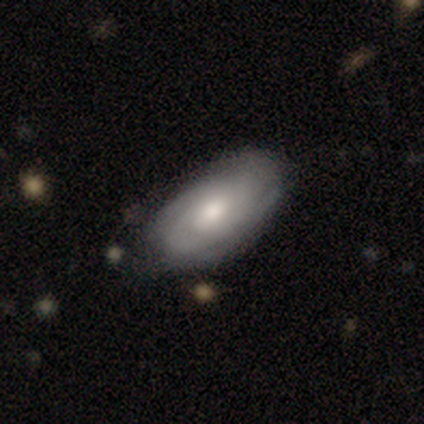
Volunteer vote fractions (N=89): Q: Smooth or featured?
A: featured or disk (55%); runner-up: smooth (39%)
Q: Edge-on disk?
A: no (94%); runner-up: yes (6%)
Q: Bar?
A: no (67%); runner-up: weak (30%)
Q: Spiral arms?
A: yes (89%); runner-up: no (11%)
Q: Spiral winding?
A: tight (63%); runner-up: medium (32%)
Q: Spiral arm count?
A: can't tell (39%); runner-up: 2 (29%)
Q: Bulge size?
A: moderate (59%); runner-up: small (24%)
Q: Merging?
A: none (73%); runner-up: minor disturbance (23%)